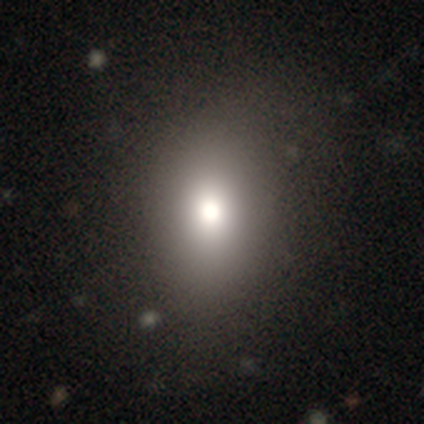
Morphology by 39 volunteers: type=smooth (82%); roundness=round (53%); merging=none (59%).